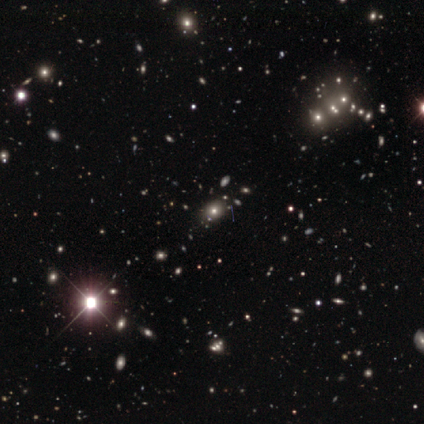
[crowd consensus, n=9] Q: Smooth or featured?
A: star or artifact (67%); runner-up: smooth (33%)